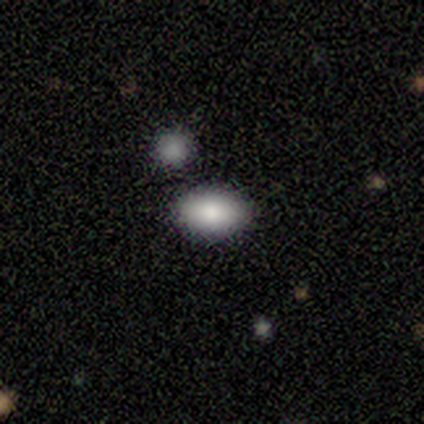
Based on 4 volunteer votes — Morphology: type=smooth (100%); roundness=in between (100%); merging=none (100%).